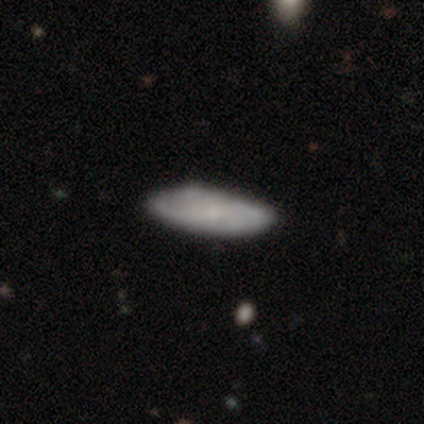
Smooth or featured? 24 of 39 (62%) said smooth. How rounded? 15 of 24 (62%) said in between. Merging? 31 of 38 (82%) said none.